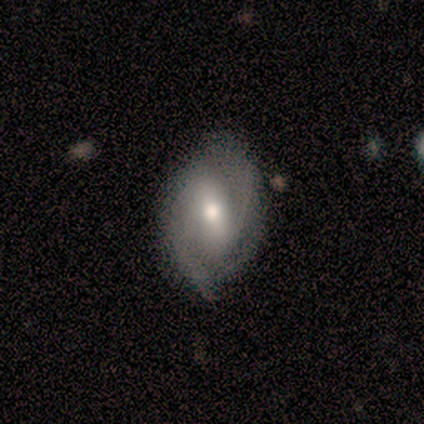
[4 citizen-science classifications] Smooth or featured: featured or disk — 100%
Edge-on disk: no — 100%
Bar: strong — 50% (tied with weak — 50%)
Spiral arms: yes — 100%
Spiral winding: loose — 50% (tight — 25%)
Spiral arm count: 2 — 100%
Bulge size: moderate — 50% (tied with small — 50%)
Merging: none — 75% (merger — 25%)